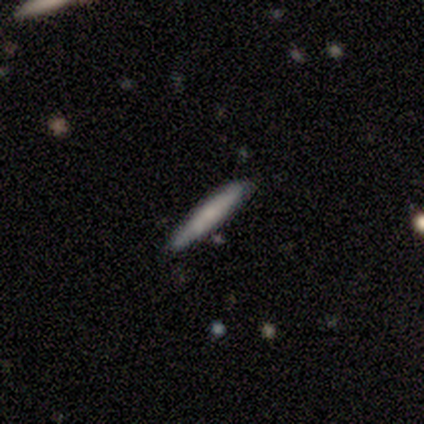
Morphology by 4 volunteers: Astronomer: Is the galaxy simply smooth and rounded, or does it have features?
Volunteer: featured or disk — 75%.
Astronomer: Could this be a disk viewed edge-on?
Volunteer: yes — 67%.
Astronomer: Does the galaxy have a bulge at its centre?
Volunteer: none — 100%.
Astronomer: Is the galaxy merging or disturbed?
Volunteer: none — 75%.